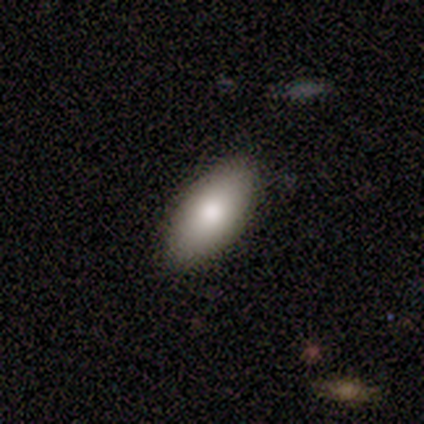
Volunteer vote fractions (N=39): A smooth galaxy with no disk features (87%) that is in between round and cigar-shaped (91%). Merging: none (84%).